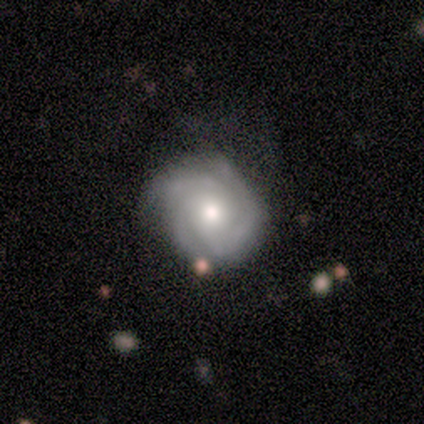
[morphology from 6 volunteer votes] type=featured or disk (83%); edge-on=no (100%); bar=no (100%); spiral arms=yes (100%); winding=tight (60%); arm count=3 (80%); bulge=moderate (80%); merging=none (60%).